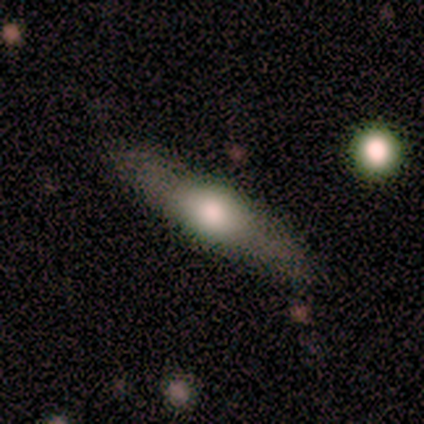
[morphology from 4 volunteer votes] Smooth or featured: smooth — 50% (featured or disk — 25%)
How rounded: in between — 50% (tied with cigar-shaped — 50%)
Merging: none — 67% (merger — 33%)